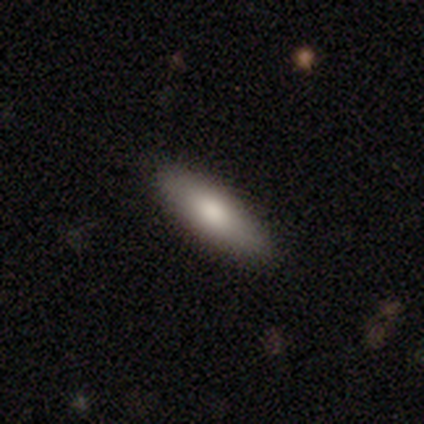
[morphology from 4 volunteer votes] Volunteers were most divided on "how rounded": cigar-shaped: 67%, in between: 33%, round: 0%. More confident: merging — none (100%); smooth or featured — smooth (75%).